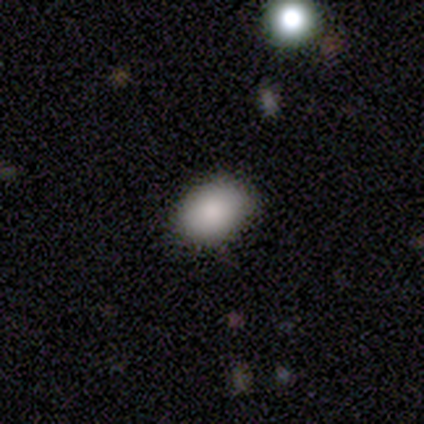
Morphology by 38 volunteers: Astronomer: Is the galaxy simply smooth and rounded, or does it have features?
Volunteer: smooth — 82%.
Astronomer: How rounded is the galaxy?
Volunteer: in between — 81%.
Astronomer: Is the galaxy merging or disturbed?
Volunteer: none — 88%.